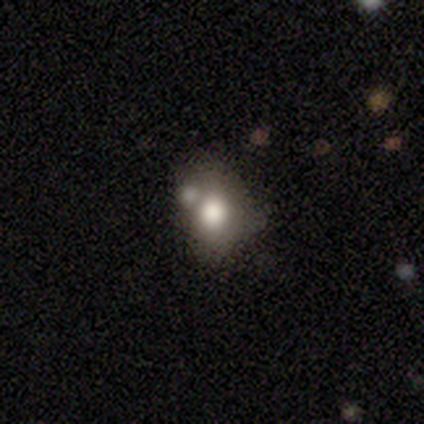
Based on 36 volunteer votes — Smooth or featured? smooth (78%)
How rounded? round (68%)
Merging? none (45%)